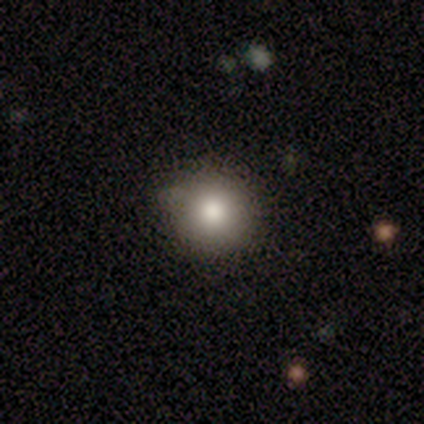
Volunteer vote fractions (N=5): Volunteers were most divided on "merging" (2-way tie): none: 50%, minor disturbance: 50%, major disturbance: 0%, merger: 0%. More confident: smooth or featured — smooth (80%); how rounded — round (75%).